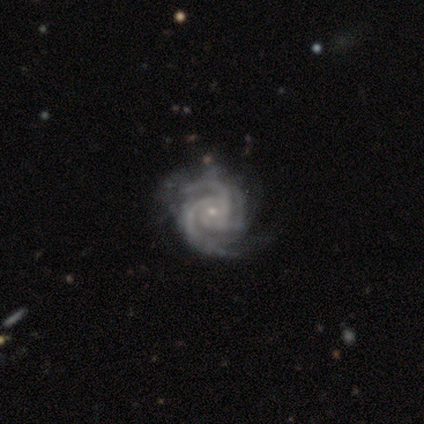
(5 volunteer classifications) featured or disk 80%, star or artifact 20%, smooth 0%. Down the decision tree: edge-on disk — no (100%); bar — no (100%); spiral arms — yes (100%); spiral arm count — 3 (100%); spiral winding — tight (50%, tied with medium); bulge size — small (50%); merging — minor disturbance (50%).